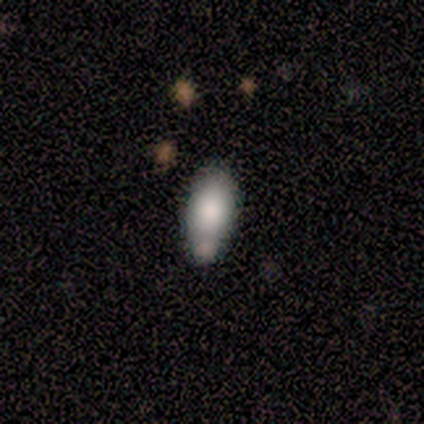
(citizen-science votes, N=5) Smooth or featured? smooth (80%)
How rounded? in between (75%)
Merging? none (40%, tied with merger)